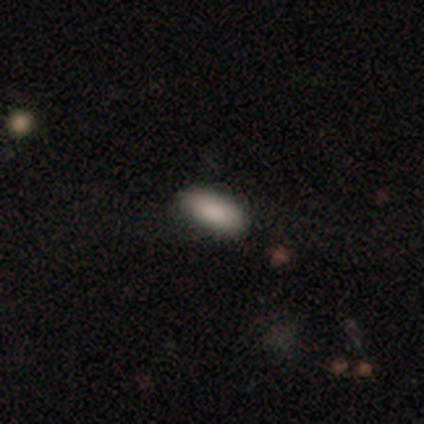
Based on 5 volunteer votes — A smooth galaxy with no disk features (60%) that is in between round and cigar-shaped (100%). Merging: none (100%).